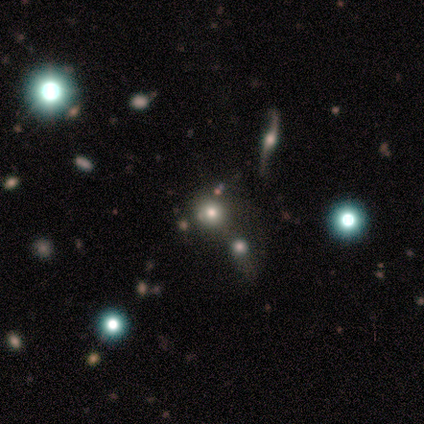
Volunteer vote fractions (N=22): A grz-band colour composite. It shows a smooth galaxy with no disk features (55%) that is round (100%). Merging: none (47%).